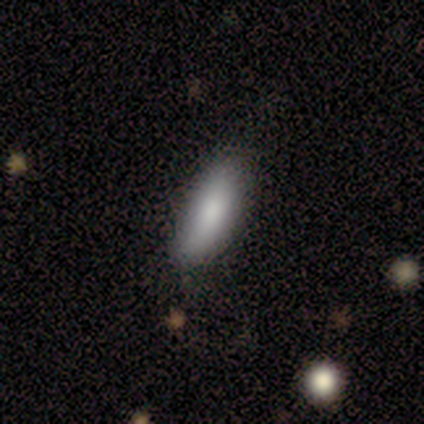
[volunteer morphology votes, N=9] Smooth or featured? smooth (89%)
How rounded? in between (75%)
Merging? none (78%)